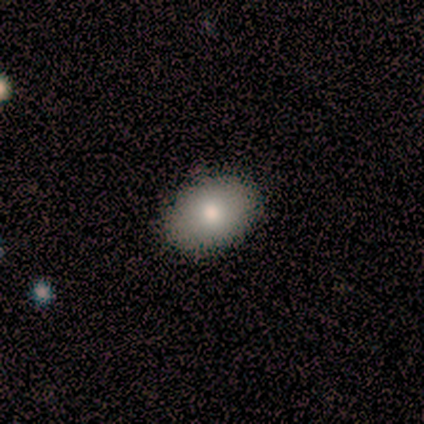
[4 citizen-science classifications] Smooth or featured? 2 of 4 (50%, tied with featured or disk) said smooth. How rounded? 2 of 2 (100%) said in between. Merging? 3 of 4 (75%) said none.